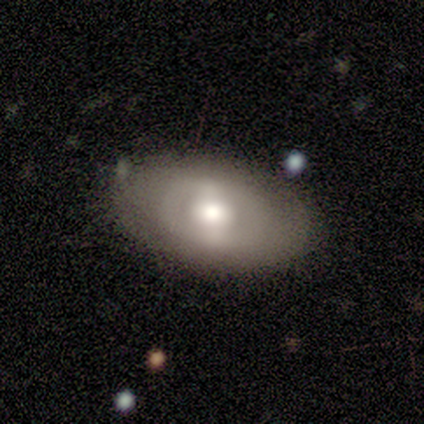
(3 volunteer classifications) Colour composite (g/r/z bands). It shows a smooth galaxy with no disk features (67%) that is in between round and cigar-shaped (100%). Merging: none (100%).